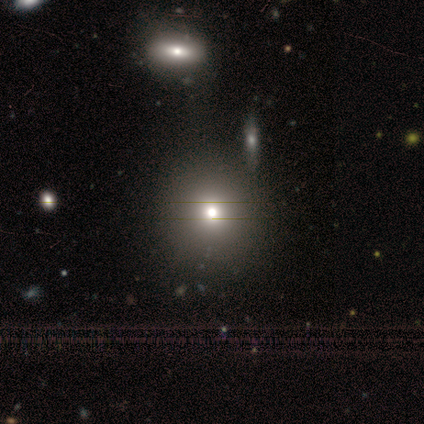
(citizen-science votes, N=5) smooth-or-featured: smooth: 60% | featured or disk: 20% | star or artifact: 20%
  how-rounded: round: 100% | in between: 0% | cigar-shaped: 0%
  merging: none: 75% | merger: 25% | minor disturbance: 0% | major disturbance: 0%